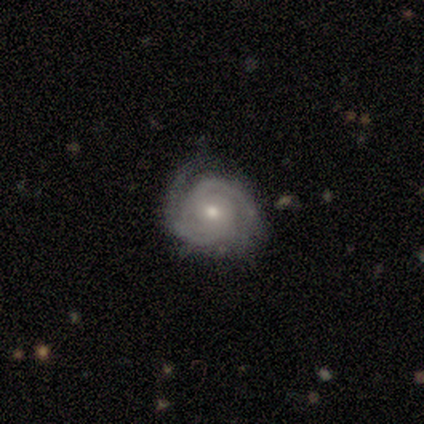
smooth_or_featured: featured or disk (p=1.00)
disk_edge_on: no (p=1.00)
bar: no (p=1.00)
has_spiral_arms: yes (p=1.00)
spiral_winding: tight (p=1.00)
spiral_arm_count: 2 (p=1.00)
bulge_size: moderate (p=1.00)
merging: none (p=1.00)